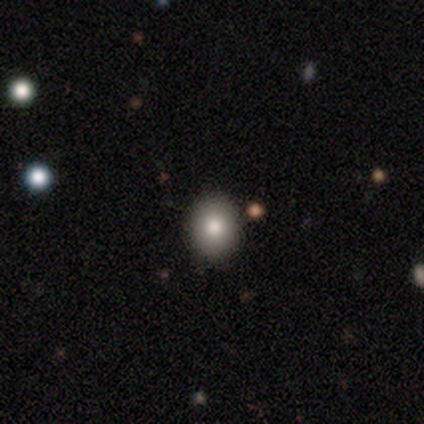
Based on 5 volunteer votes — Q: Smooth or featured?
A: smooth (100%)
Q: How rounded?
A: round (80%); runner-up: in between (20%)
Q: Merging?
A: none (100%)